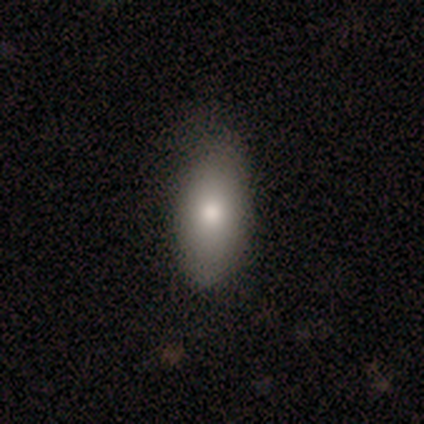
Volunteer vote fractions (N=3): This is likely a smooth galaxy (67%). How rounded: clearly in between (100%). Merging: clearly none (100%).